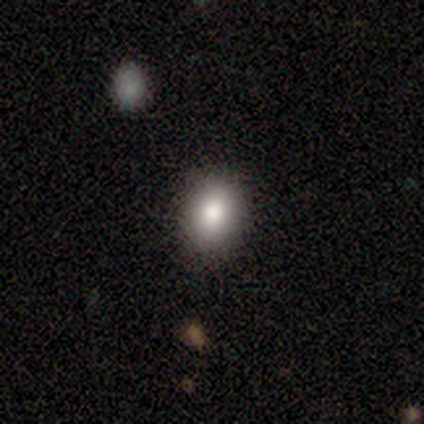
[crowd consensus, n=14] Overall: smooth (71%). How rounded: in between (80%). Merging: none (83%).